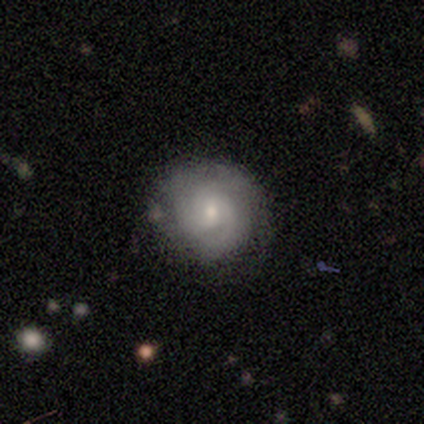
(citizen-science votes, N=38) A featured or disk galaxy (79%) with no bar (67%), tight (61%) spiral arms (93%) and a small central bulge (53%).

Vote fractions:
- Smooth or featured? featured or disk: 79% / smooth: 18% / star or artifact: 3%
- Edge-on disk? no: 100% / yes: 0%
- Bar? no: 67% / weak: 30% / strong: 3%
- Spiral arms? yes: 93% / no: 7%
- Spiral winding? tight: 61% / medium: 29% / loose: 11%
- Spiral arm count? can't tell: 43% / 3: 39% / 2: 11% / 1: 7% / 4: 0% / more than 4: 0%
- Bulge size? small: 53% / moderate: 37% / large: 7% / none: 3% / dominant: 0%
- Merging? none: 78% / minor disturbance: 14% / major disturbance: 8% / merger: 0%